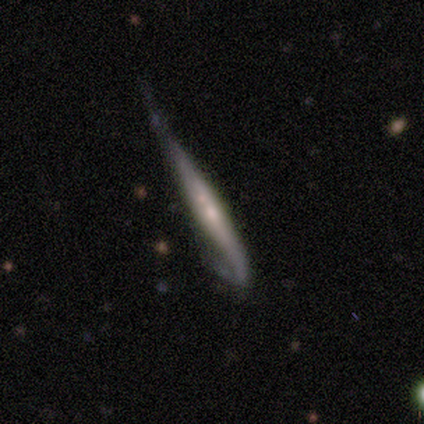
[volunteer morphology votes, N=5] This appears to be a featured or disk galaxy (80%) viewed edge-on (100%) with a rounded central bulge (75%). Merging: minor disturbance (60%).